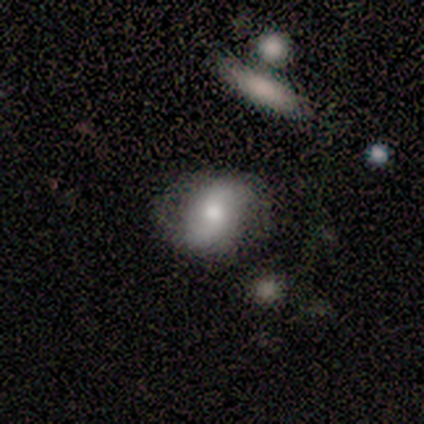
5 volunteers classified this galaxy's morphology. A smooth galaxy with no disk features (80%) that is round (50%, tied with in between).

Vote fractions:
- Smooth or featured? smooth: 80% / featured or disk: 20% / star or artifact: 0%
- How rounded? round: 50% (tied) / in between: 50% (tied) / cigar-shaped: 0%
- Merging? none: 100% / minor disturbance: 0% / major disturbance: 0% / merger: 0%